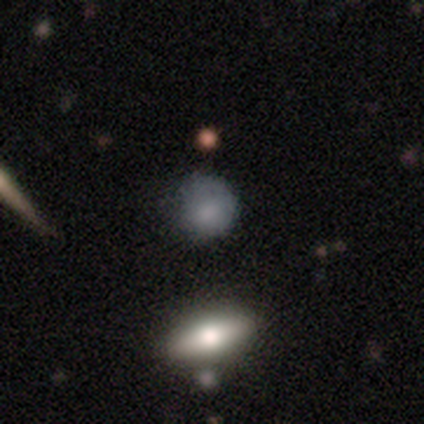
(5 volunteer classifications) Morphology: type=smooth (100%); roundness=round (80%); merging=none (60%).